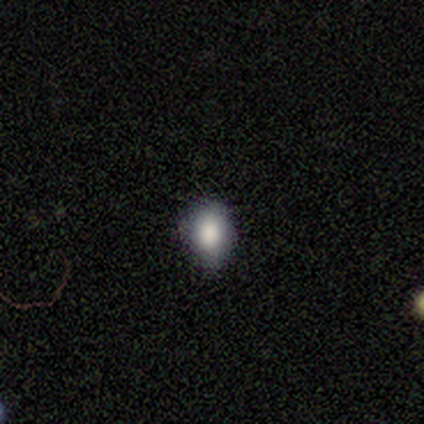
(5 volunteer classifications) smooth-or-featured: smooth: 100% | featured or disk: 0% | star or artifact: 0%
  how-rounded: round: 60% | in between: 40% | cigar-shaped: 0%
  merging: none: 80% | minor disturbance: 20% | major disturbance: 0% | merger: 0%